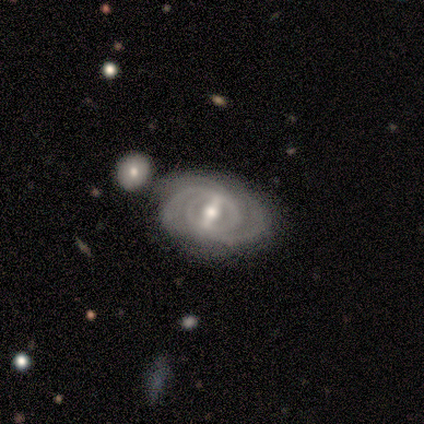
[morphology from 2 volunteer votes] This is clearly a featured or disk galaxy (100%). It is clearly not viewed edge-on (100%). Bar: possibly strong (50%, tied with weak). Spiral arm pattern: clearly yes (100%). Spiral arm count: clearly 2 (100%). Spiral winding: clearly tight (100%). Central bulge: clearly moderate (100%). Merging: clearly minor disturbance (100%).